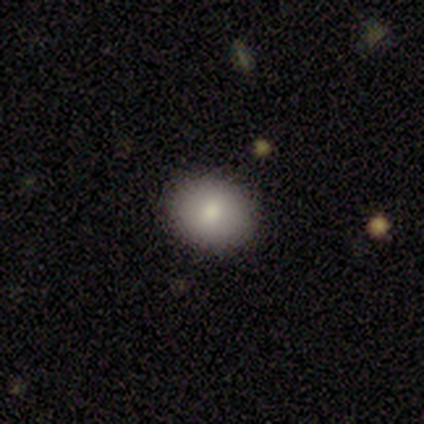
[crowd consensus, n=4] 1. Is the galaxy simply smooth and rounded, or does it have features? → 100% smooth, 0% featured or disk, 0% star or artifact.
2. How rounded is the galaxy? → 75% round, 25% in between, 0% cigar-shaped.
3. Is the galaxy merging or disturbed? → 100% none, 0% minor disturbance, 0% major disturbance, 0% merger.